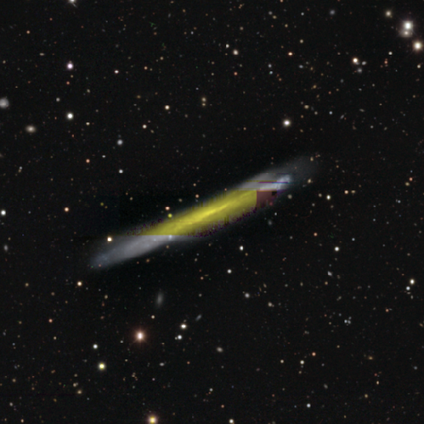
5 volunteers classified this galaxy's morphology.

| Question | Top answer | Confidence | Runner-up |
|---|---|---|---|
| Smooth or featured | featured or disk | 60% | smooth (40%) |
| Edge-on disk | yes | 100% | — |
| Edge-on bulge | none | 100% | — |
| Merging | none | 100% | — |